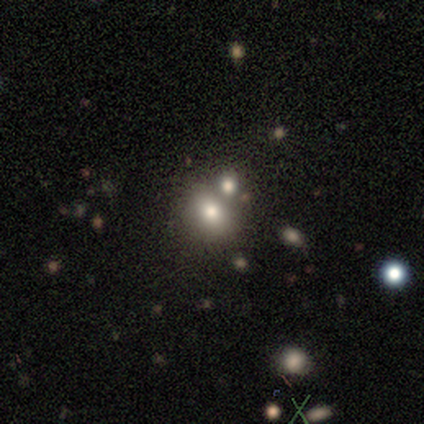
Volunteers were most divided on "merging": none: 48%, merger: 42%, minor disturbance: 9%, major disturbance: 0%. More confident: smooth or featured — smooth (68%); how rounded — round (56%).